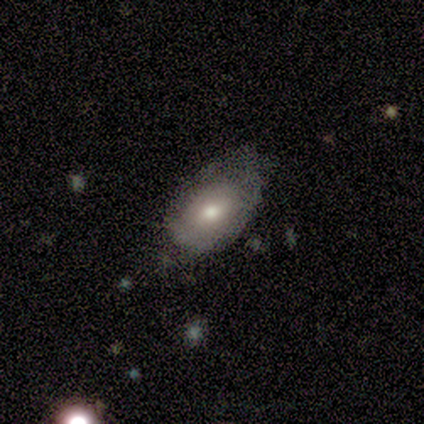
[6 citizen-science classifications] A smooth galaxy with no disk features (83%) that is in between round and cigar-shaped (80%). Merging: none (67%).